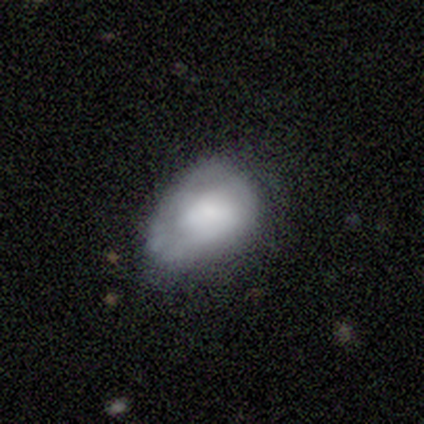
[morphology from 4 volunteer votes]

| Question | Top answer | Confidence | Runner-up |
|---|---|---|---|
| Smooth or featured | smooth | 75% | featured or disk (25%) |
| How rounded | in between | 100% | — |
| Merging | minor disturbance | 50% | none (25%) |